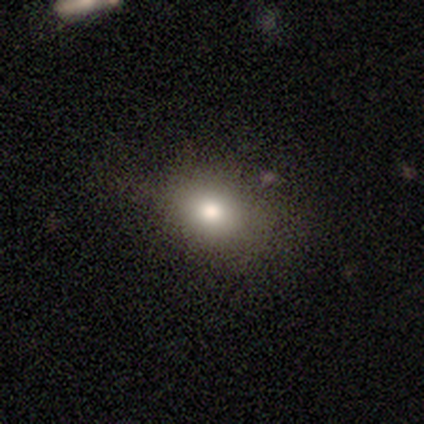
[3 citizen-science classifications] This appears to be a smooth galaxy with no disk features (100%) that is in between round and cigar-shaped (100%). Merging: none (33%, tied with minor disturbance and merger).